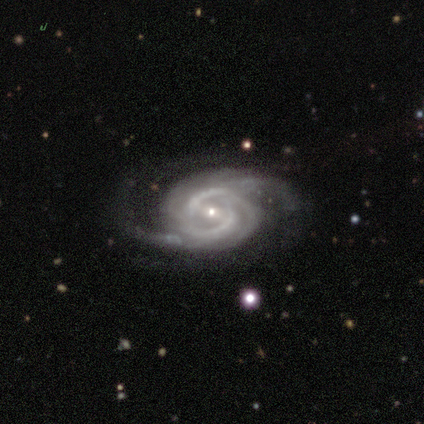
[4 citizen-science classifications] Morphology: type=featured or disk (100%); edge-on=no (100%); bar=strong (100%); spiral arms=yes (100%); winding=tight (50%); arm count=2 (50%); bulge=small (75%); merging=none (100%).